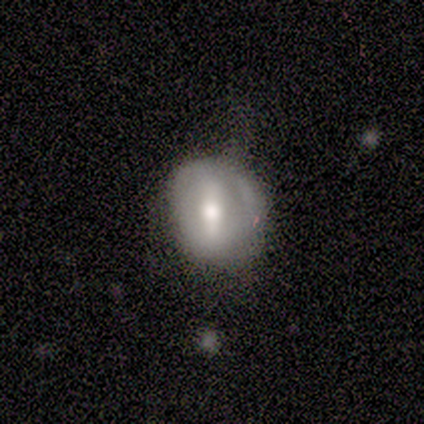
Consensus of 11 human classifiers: This appears to be a featured or disk galaxy (64%) with a weak bar (50%), no spiral arms (83%) and a moderate central bulge (50%). Merging: minor disturbance (55%).